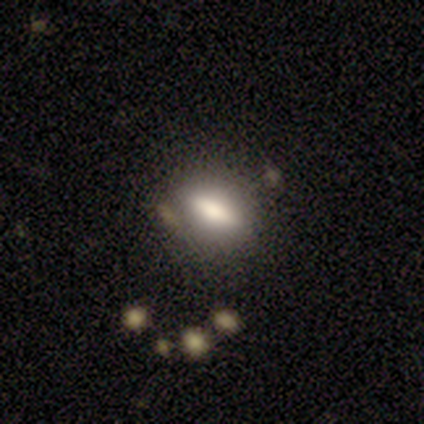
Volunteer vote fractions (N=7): Morphology: type=smooth (57%); roundness=cigar-shaped (75%); merging=none (50%).